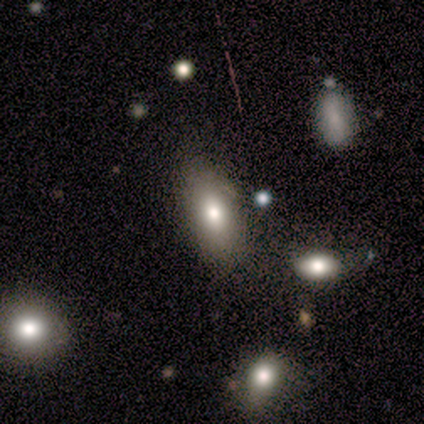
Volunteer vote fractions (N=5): Volunteers were most divided on "merging": none: 80%, minor disturbance: 20%, major disturbance: 0%, merger: 0%. More confident: smooth or featured — smooth (100%); how rounded — in between (100%).